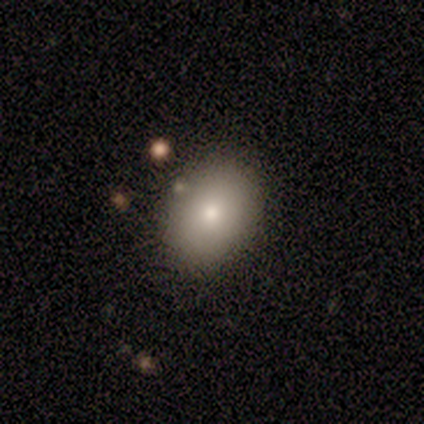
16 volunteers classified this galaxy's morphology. Smooth or featured? smooth (94%)
How rounded? in between (67%)
Merging? none (87%)